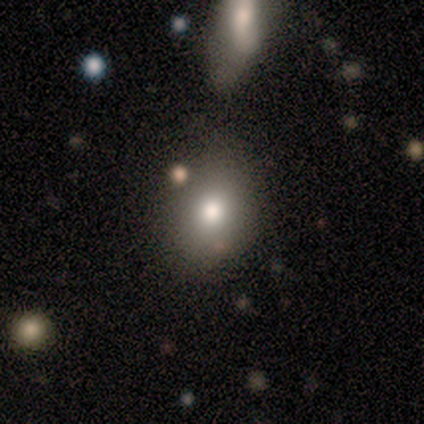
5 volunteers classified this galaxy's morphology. Smooth or featured? 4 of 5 (80%) said smooth. How rounded? 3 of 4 (75%) said in between. Merging? 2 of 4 (50%) said none.